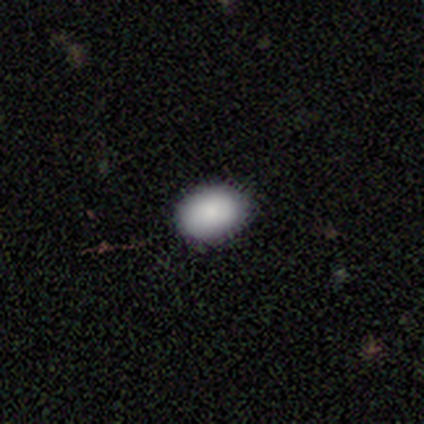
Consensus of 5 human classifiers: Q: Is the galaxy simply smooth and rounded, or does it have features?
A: smooth — 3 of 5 (60%).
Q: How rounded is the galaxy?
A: in between — 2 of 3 (67%).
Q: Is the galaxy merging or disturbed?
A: none — 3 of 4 (75%).